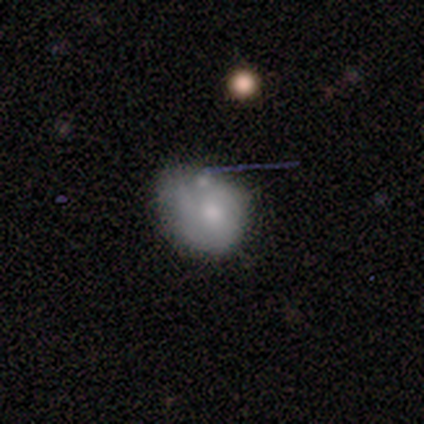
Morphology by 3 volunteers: Smooth or featured? 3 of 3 (100%) said featured or disk. Edge-on disk? 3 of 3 (100%) said no. Bar? 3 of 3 (100%) said no. Spiral arms? 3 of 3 (100%) said no. Bulge size? 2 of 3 (67%) said small. Merging? 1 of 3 (33%, tied with major disturbance and merger) said none.